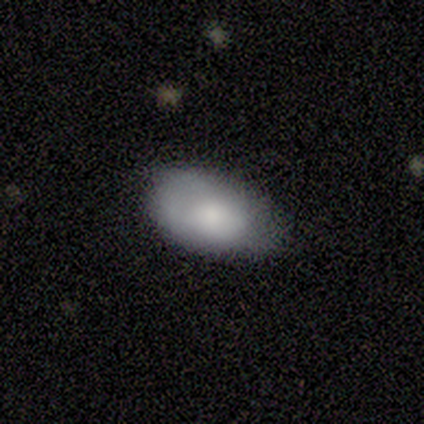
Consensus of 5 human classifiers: A smooth galaxy with no disk features (100%) that is in between round and cigar-shaped (80%). Merging: none (100%).